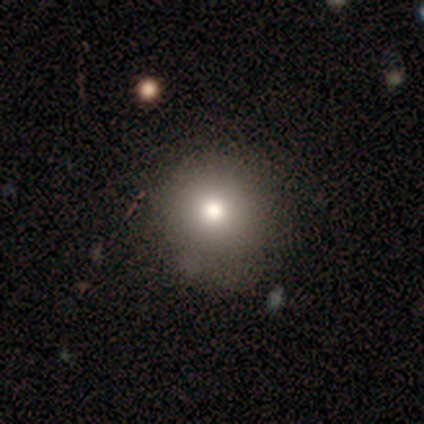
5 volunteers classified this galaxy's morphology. Overall: smooth (100%). How rounded: round (80%). Merging: none (60%; minor disturbance 40%).